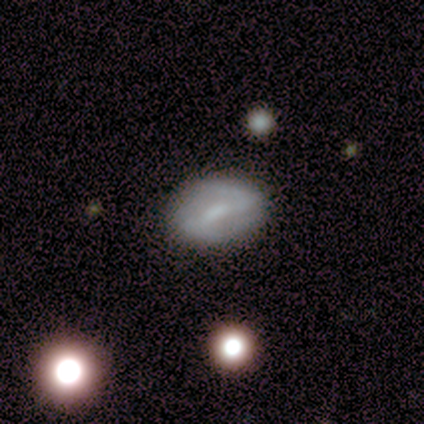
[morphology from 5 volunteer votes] Q: Smooth or featured?
A: featured or disk (60%); runner-up: smooth (40%)
Q: Edge-on disk?
A: no (100%)
Q: Bar?
A: strong (100%)
Q: Spiral arms?
A: yes (100%)
Q: Spiral winding?
A: tight (33%); tied with: medium (33%); loose (33%)
Q: Spiral arm count?
A: 2 (100%)
Q: Bulge size?
A: moderate (67%); runner-up: small (33%)
Q: Merging?
A: none (100%)